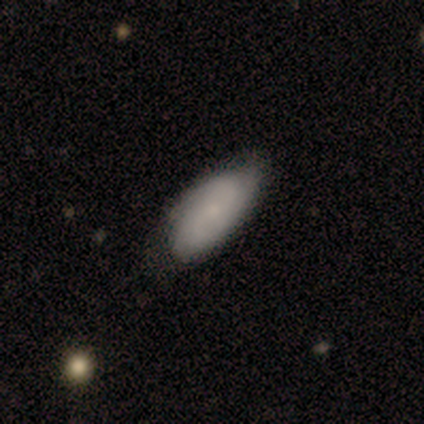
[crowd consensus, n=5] Volunteers were most divided on "spiral winding" (2-way tie): tight: 50%, medium: 50%, loose: 0%; "bulge size" (3-way tie): moderate: 33%, small: 33%, none: 33%, dominant: 0%, large: 0%. More confident: edge-on disk — no (100%); spiral arm count — 2 (100%); merging — none (80%); bar — no (67%); spiral arms — yes (67%); smooth or featured — featured or disk (60%).